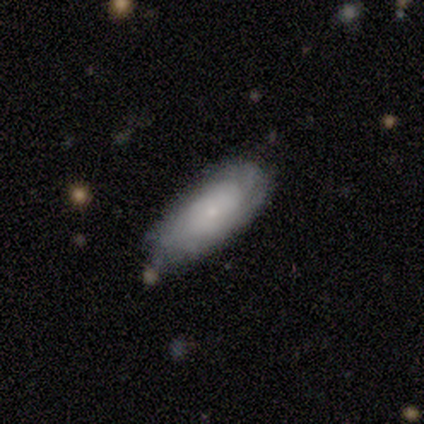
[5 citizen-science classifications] Morphology: type=smooth (60%); roundness=cigar-shaped (67%); merging=none (60%).